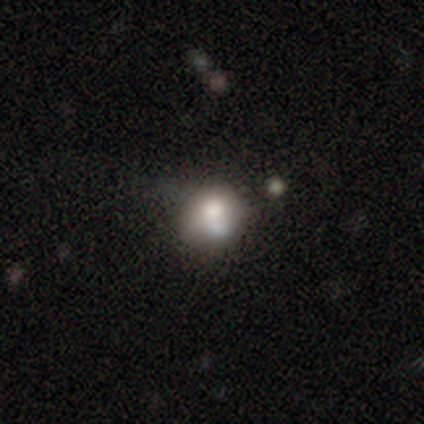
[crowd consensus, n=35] This is likely a smooth galaxy (69%). How rounded: clearly round (96%). Merging: possibly merger (50%).